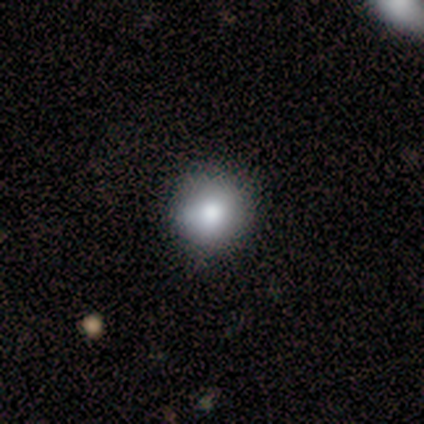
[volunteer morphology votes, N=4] A smooth galaxy with no disk features (75%) that is round (100%). Merging: none (100%).